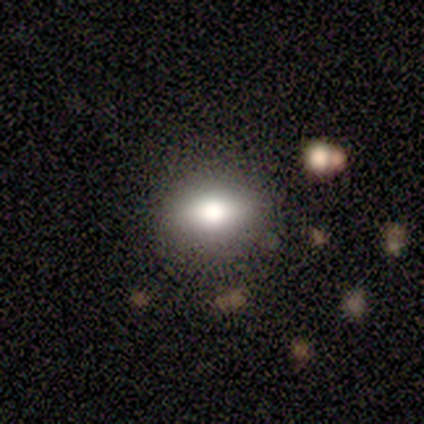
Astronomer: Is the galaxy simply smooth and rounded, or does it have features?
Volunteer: smooth — 60% (runner-up: featured or disk, 40%).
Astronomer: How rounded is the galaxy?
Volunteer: in between — 67%.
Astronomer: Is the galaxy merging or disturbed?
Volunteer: none — 60% (runner-up: minor disturbance, 40%).